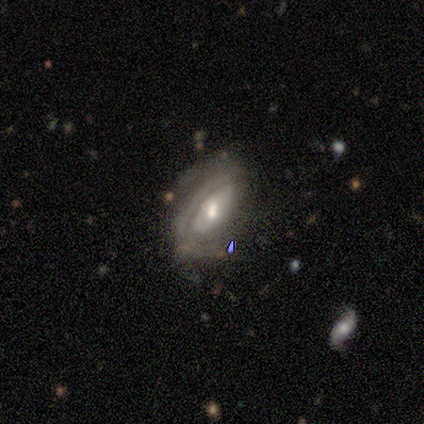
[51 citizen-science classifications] featured or disk 73%, smooth 25%, star or artifact 2%. Down the decision tree: edge-on disk — no (92%); bar — weak (47%, tied with no); spiral arms — yes (65%); spiral arm count — can't tell (45%); spiral winding — medium (50%); bulge size — moderate (71%); merging — minor disturbance (34%).